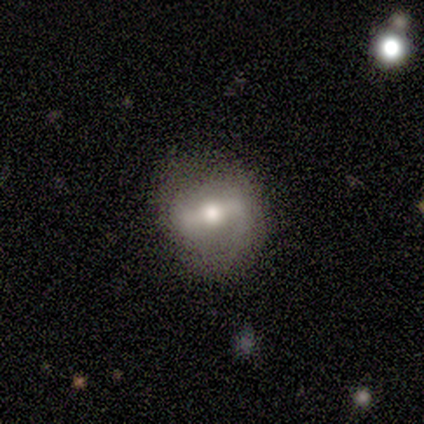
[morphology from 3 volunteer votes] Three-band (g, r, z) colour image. It shows a smooth galaxy with no disk features (67%) that is in between round and cigar-shaped (50%, tied with cigar-shaped). Merging: none (67%).